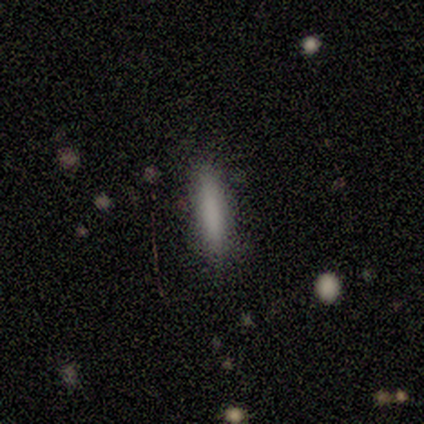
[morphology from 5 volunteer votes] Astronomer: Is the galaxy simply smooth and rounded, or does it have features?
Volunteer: smooth — 60%.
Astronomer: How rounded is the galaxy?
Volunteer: cigar-shaped — 100%.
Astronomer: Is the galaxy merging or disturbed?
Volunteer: none — 75%.